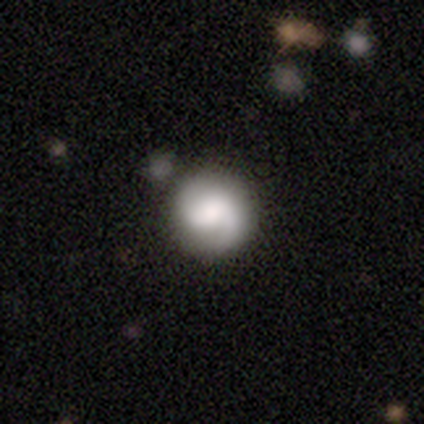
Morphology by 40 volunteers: smooth-or-featured: featured or disk: 60% | smooth: 35% | star or artifact: 5%
  disk-edge-on: no: 100% | yes: 0%
    bar: no: 46% | weak: 42% | strong: 12%
    has-spiral-arms: yes: 83% | no: 17%
      spiral-winding: tight: 35% (tied) | loose: 35% (tied) | medium: 30%
      spiral-arm-count: 2: 80% | 1: 10% | can't tell: 10% | 3: 0% | 4: 0% | more than 4: 0%
    bulge-size: large: 33% | moderate: 21% | none: 21% | dominant: 12% | small: 12%
  merging: none: 53% | minor disturbance: 8% | merger: 8% | major disturbance: 3%